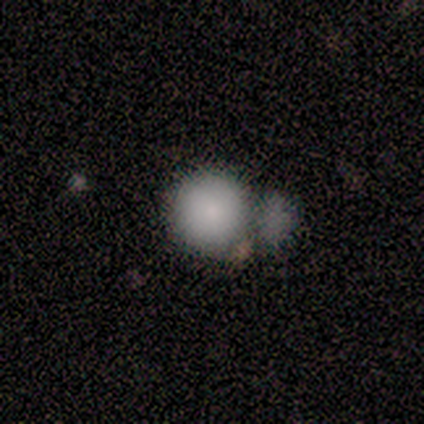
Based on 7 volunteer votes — smooth-or-featured: smooth: 86% | star or artifact: 14% | featured or disk: 0%
  how-rounded: round: 100% | in between: 0% | cigar-shaped: 0%
  merging: none: 33% (tied) | minor disturbance: 33% (tied) | merger: 33% (tied) | major disturbance: 0%